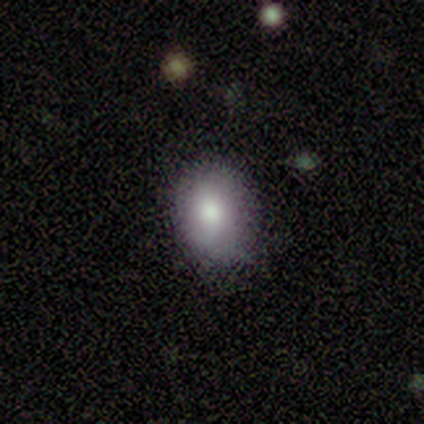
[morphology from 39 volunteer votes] Smooth or featured?
  - smooth: 77% *
  - star or artifact: 15%
  - featured or disk: 8%
How rounded?
  - in between: 57% *
  - round: 43%
  - cigar-shaped: 0%
Merging?
  - none: 73% *
  - minor disturbance: 27%
  - major disturbance: 0%
  - merger: 0%